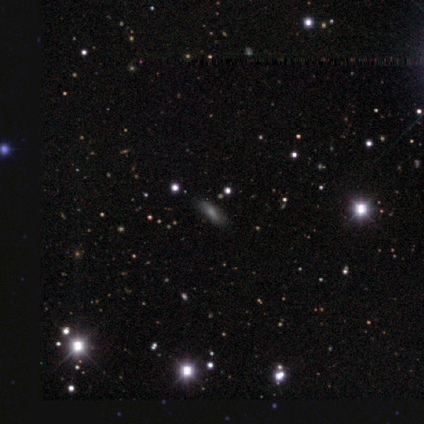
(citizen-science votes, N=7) Smooth or featured: smooth — 57% (star or artifact — 43%)
How rounded: cigar-shaped — 75% (in between — 25%)
Merging: none — 100%